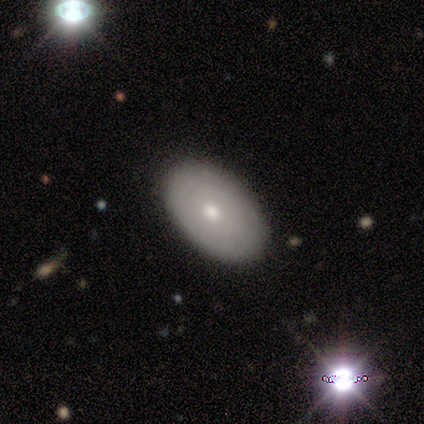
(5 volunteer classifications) Smooth or featured?
  - featured or disk: 40% * (tied)
  - star or artifact: 40% * (tied)
  - smooth: 20%
Edge-on disk?
  - no: 100% *
  - yes: 0%
Bar?
  - no: 100% *
  - strong: 0%
  - weak: 0%
Spiral arms?
  - no: 100% *
  - yes: 0%
Bulge size?
  - moderate: 50% * (tied)
  - small: 50% * (tied)
  - dominant: 0%
  - large: 0%
  - none: 0%
Merging?
  - none: 67% *
  - minor disturbance: 33%
  - major disturbance: 0%
  - merger: 0%